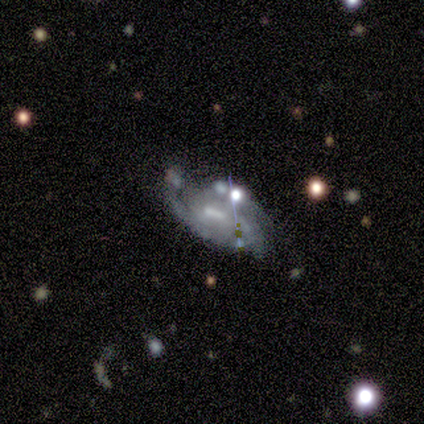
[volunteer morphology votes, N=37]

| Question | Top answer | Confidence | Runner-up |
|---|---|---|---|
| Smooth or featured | featured or disk | 68% | smooth (16%) |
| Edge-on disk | no | 92% | yes (8%) |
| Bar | weak | 52% | strong (26%) |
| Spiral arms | yes | 100% | — |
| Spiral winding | tight | 43% | medium (39%) |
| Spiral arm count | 2 | 39% | can't tell (30%) |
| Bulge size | none | 43% | small (35%) |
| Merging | none | 48% | minor disturbance (23%) |